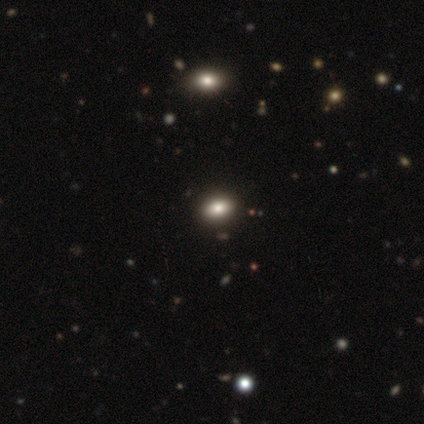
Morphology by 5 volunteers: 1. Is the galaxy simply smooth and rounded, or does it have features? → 60% smooth, 40% featured or disk, 0% star or artifact.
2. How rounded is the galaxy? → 100% in between, 0% round, 0% cigar-shaped.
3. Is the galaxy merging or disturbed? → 100% none, 0% minor disturbance, 0% major disturbance, 0% merger.